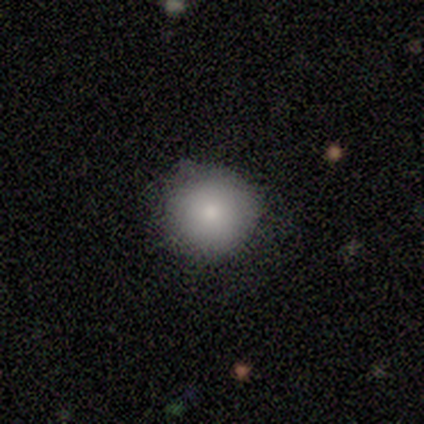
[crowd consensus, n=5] Volunteers were most divided on "merging": none: 60%, minor disturbance: 40%, major disturbance: 0%, merger: 0%. More confident: smooth or featured — smooth (100%); how rounded — round (100%).